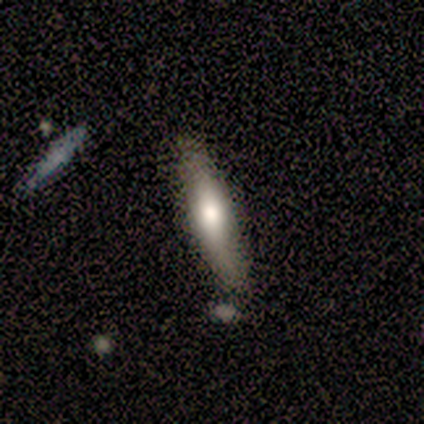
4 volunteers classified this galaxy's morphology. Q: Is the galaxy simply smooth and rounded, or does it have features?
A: smooth — 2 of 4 (50%, tied with featured or disk).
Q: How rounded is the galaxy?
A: in between — 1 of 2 (50%, tied with cigar-shaped).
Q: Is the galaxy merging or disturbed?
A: none — 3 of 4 (75%).